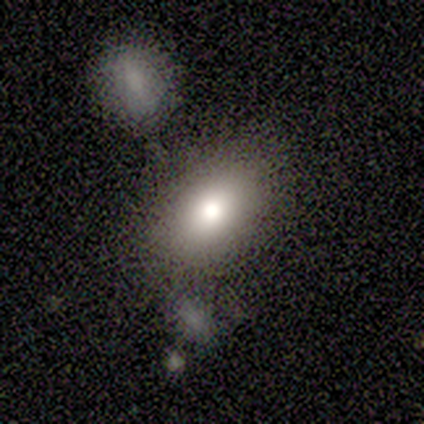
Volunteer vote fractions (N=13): This appears to be a smooth galaxy with no disk features (62%) that is in between round and cigar-shaped (88%). Merging: none (67%).